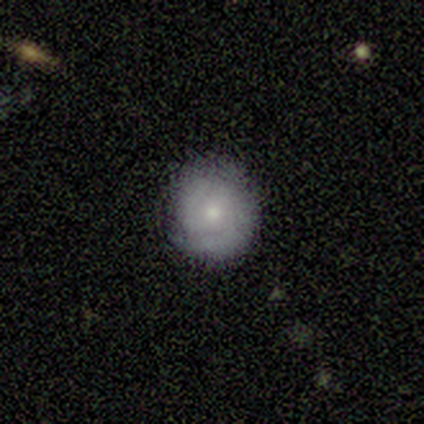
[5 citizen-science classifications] This appears to be a smooth galaxy with no disk features (60%) that is round (67%). Merging: none (100%).